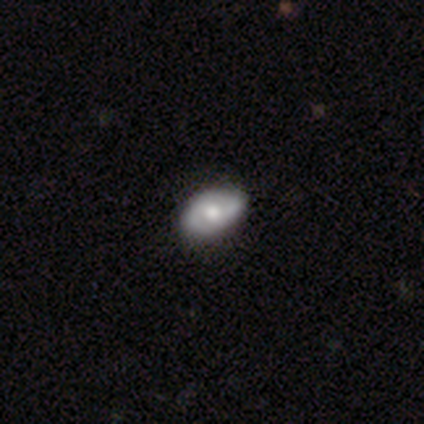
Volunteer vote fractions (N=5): Smooth or featured: featured or disk — 60% (smooth — 40%)
Edge-on disk: no — 100%
Bar: no — 67% (weak — 33%)
Spiral arms: yes — 100%
Spiral winding: tight — 33% (tied with medium — 33%; loose — 33%)
Spiral arm count: 2 — 100%
Bulge size: moderate — 100%
Merging: none — 100%